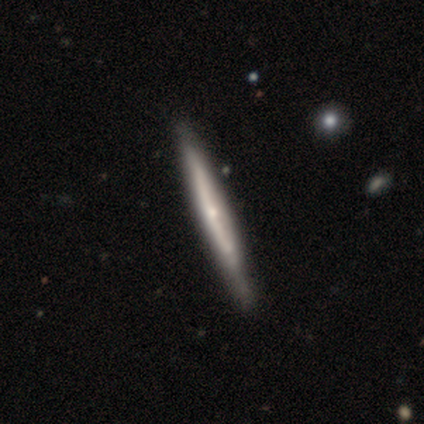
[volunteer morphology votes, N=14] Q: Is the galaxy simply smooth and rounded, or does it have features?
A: featured or disk — 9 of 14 (64%).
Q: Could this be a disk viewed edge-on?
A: yes — 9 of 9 (100%).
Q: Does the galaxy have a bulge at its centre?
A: rounded — 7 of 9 (78%).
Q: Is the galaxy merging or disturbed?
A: none — 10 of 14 (71%).